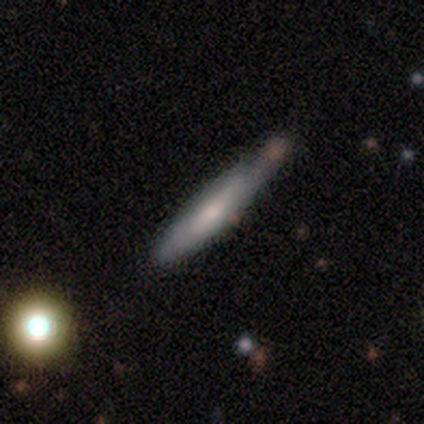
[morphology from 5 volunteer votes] Overall: smooth (60%; featured or disk 40%). How rounded: cigar-shaped (100%). Merging: none (60%; merger 40%).